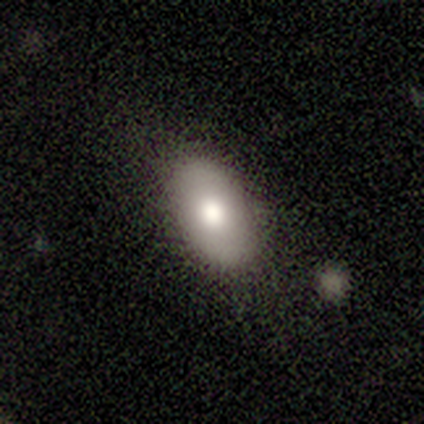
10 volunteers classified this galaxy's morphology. This is likely a smooth galaxy (70%). How rounded: clearly in between (100%). Merging: clearly none (80%).